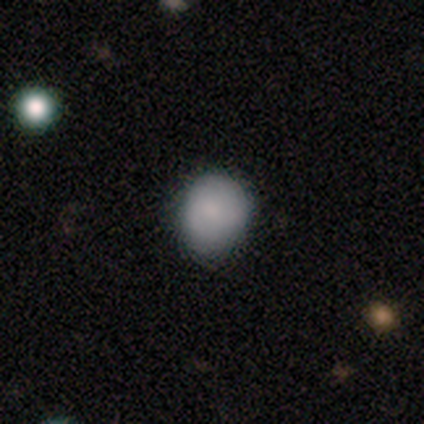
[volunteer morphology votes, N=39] type=smooth (77%); roundness=round (60%); merging=none (80%).